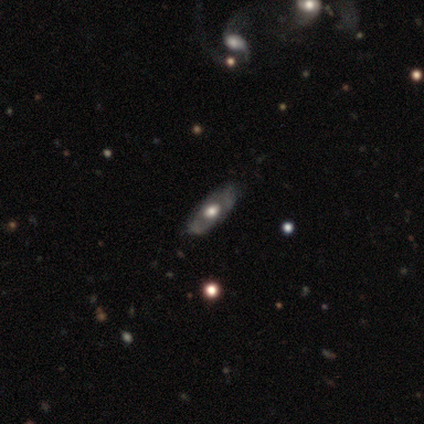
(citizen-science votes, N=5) Smooth or featured?
  - smooth: 60% *
  - featured or disk: 20%
  - star or artifact: 20%
How rounded?
  - in between: 67% *
  - cigar-shaped: 33%
  - round: 0%
Merging?
  - none: 100% *
  - minor disturbance: 0%
  - major disturbance: 0%
  - merger: 0%